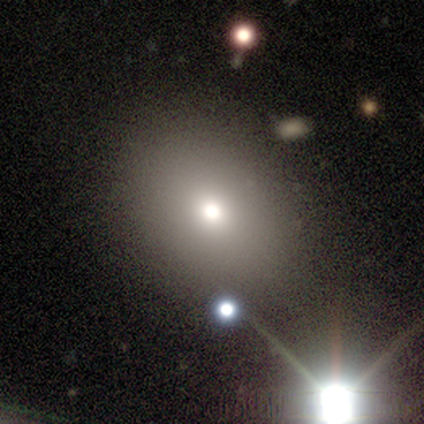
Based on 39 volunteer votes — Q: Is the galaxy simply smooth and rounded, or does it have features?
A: smooth — 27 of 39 (69%).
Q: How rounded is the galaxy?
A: round — 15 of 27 (56%).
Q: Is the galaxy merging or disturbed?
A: none — 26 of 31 (84%).